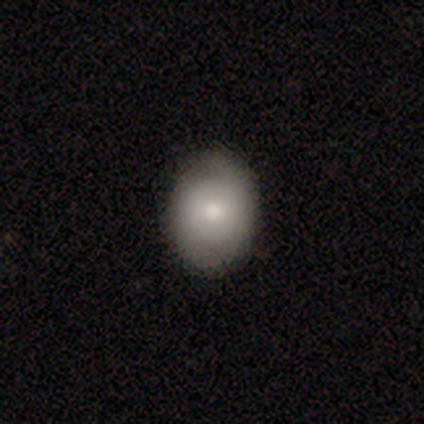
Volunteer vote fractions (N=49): A smooth galaxy with no disk features (76%) that is in between round and cigar-shaped (51%). Merging: none (85%).